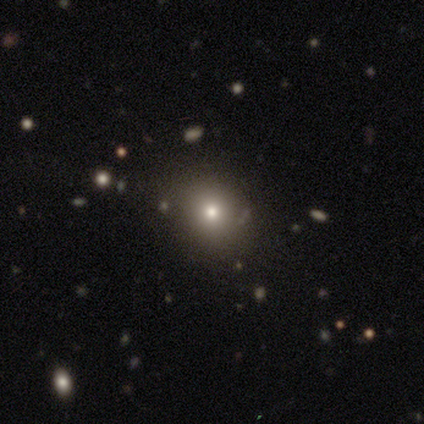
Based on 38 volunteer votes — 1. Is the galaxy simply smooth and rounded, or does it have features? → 63% smooth, 24% star or artifact, 13% featured or disk.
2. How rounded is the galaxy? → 71% round, 29% in between, 0% cigar-shaped.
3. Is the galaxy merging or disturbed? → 79% none, 10% merger, 7% minor disturbance, 3% major disturbance.